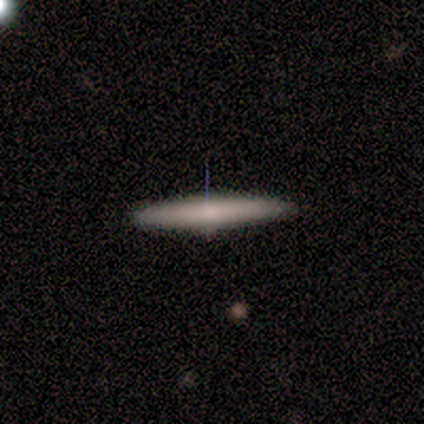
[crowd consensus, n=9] Overall: smooth (89%). How rounded: cigar-shaped (88%). Merging: none (89%).